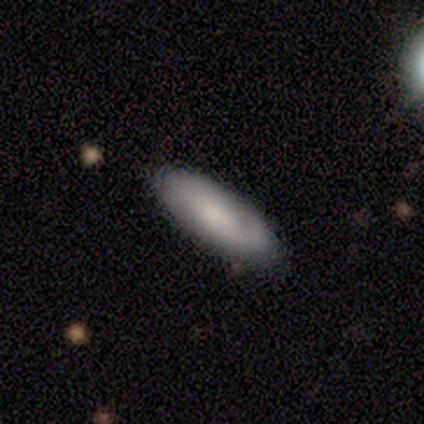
Smooth or featured: smooth — 49% (featured or disk — 43%)
How rounded: in between — 56% (cigar-shaped — 44%)
Merging: none — 88% (minor disturbance — 9%)